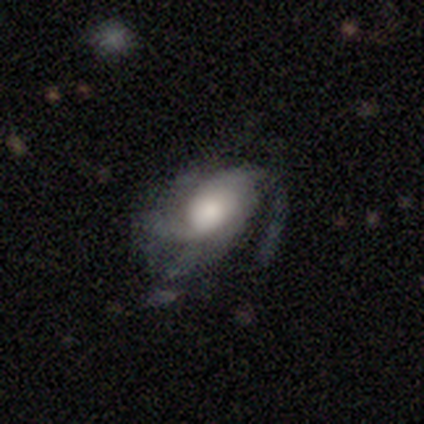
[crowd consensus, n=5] Smooth or featured: featured or disk — 100%
Edge-on disk: no — 100%
Bar: no — 80% (weak — 20%)
Spiral arms: yes — 100%
Spiral winding: medium — 60% (tight — 20%)
Spiral arm count: 2 — 60% (3 — 20%)
Bulge size: moderate — 60% (large — 40%)
Merging: minor disturbance — 60% (none — 40%)